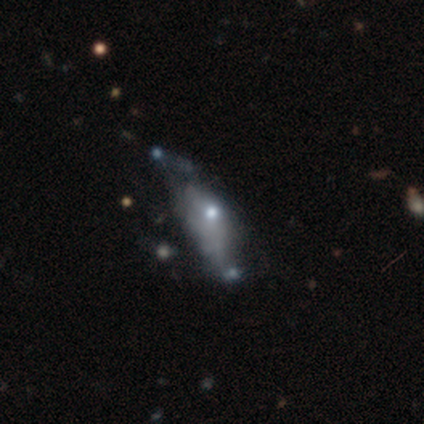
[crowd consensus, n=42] featured or disk 60%, smooth 31%, star or artifact 10%. Down the decision tree: edge-on disk — no (96%); bar — no (96%); spiral arms — no (79%); bulge size — moderate (58%); merging — major disturbance (50%).